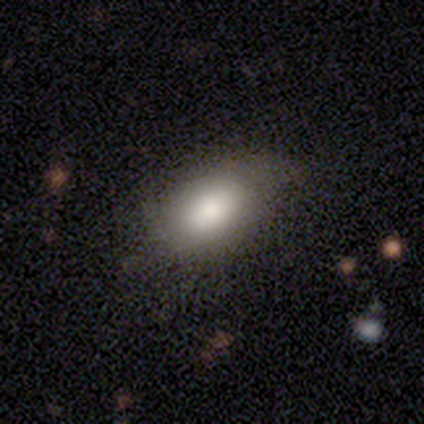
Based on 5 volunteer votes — Smooth or featured?
  - smooth: 60% *
  - featured or disk: 40%
  - star or artifact: 0%
How rounded?
  - in between: 67% *
  - round: 33%
  - cigar-shaped: 0%
Merging?
  - none: 80% *
  - minor disturbance: 20%
  - major disturbance: 0%
  - merger: 0%